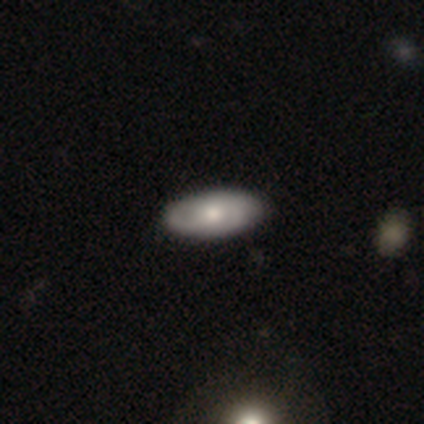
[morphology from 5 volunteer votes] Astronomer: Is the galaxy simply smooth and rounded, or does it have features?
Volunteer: featured or disk — 60% (runner-up: smooth, 40%).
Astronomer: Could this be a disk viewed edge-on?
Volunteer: no — 100%.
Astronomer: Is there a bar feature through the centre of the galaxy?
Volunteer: no — 100%.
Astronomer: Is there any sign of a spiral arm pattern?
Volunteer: yes — 67%.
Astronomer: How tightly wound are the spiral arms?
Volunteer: medium — 100%.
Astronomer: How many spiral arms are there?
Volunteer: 2 — 50%, tied with can't tell at 50%.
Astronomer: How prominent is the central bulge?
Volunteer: large — 33%, tied with moderate and small at 33%.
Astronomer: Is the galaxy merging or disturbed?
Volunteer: none — 100%.